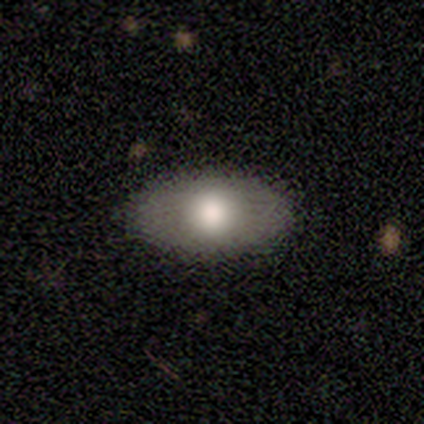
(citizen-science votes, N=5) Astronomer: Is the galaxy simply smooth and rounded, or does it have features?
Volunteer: smooth — 80%.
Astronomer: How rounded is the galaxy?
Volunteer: in between — 100%.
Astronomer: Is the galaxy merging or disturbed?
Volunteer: none — 80%.